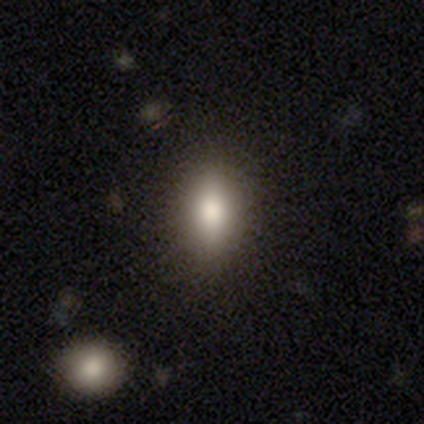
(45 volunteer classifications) Morphology: type=smooth (80%); roundness=in between (72%); merging=none (79%).